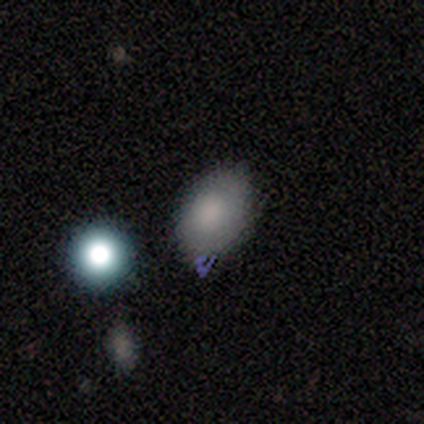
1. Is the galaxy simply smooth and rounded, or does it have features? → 80% smooth, 20% featured or disk, 0% star or artifact.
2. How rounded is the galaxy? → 100% in between, 0% round, 0% cigar-shaped.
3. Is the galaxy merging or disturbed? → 80% none, 20% major disturbance, 0% minor disturbance, 0% merger.